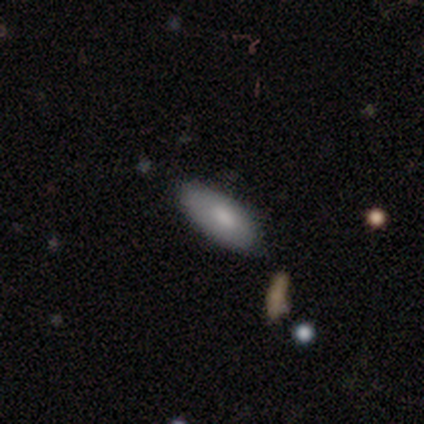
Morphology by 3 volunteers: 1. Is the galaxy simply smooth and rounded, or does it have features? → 67% smooth, 33% featured or disk, 0% star or artifact.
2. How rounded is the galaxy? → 100% in between, 0% round, 0% cigar-shaped.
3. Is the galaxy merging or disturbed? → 67% none, 33% major disturbance, 0% minor disturbance, 0% merger.